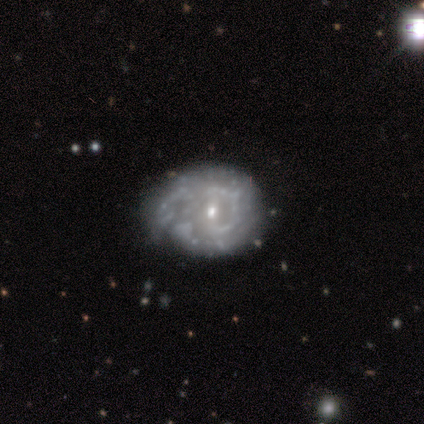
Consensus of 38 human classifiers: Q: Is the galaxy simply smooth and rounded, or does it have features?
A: featured or disk — 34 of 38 (89%).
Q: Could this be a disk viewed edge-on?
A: no — 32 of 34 (94%).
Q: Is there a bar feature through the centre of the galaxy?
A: no — 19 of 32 (59%).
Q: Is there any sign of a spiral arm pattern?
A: yes — 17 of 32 (53%).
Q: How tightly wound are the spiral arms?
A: tight — 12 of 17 (71%).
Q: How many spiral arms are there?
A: can't tell — 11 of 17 (65%).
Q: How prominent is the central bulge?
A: small — 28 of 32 (88%).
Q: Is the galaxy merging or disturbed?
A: none — 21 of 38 (55%).